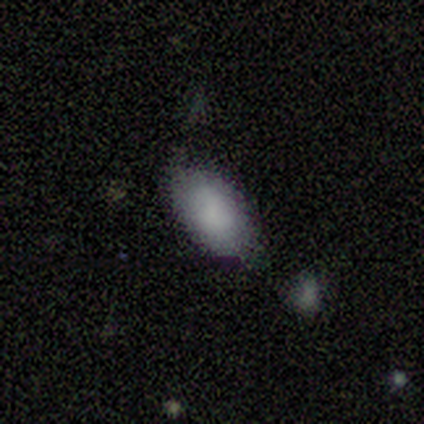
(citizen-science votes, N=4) Morphology: type=smooth (50%, tied with featured or disk); roundness=in between (100%); merging=none (75%).